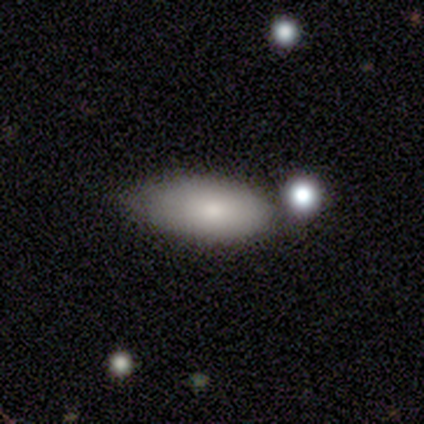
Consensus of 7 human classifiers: Smooth or featured?
  - smooth: 86% *
  - star or artifact: 14%
  - featured or disk: 0%
How rounded?
  - in between: 83% *
  - cigar-shaped: 17%
  - round: 0%
Merging?
  - none: 50% *
  - merger: 33%
  - minor disturbance: 17%
  - major disturbance: 0%